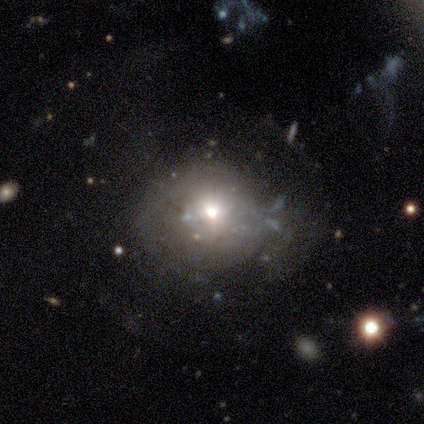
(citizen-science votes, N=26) Smooth or featured? featured or disk (58%)
Edge-on disk? no (93%)
Bar? no (93%)
Spiral arms? no (86%)
Bulge size? moderate (57%)
Merging? none (45%)